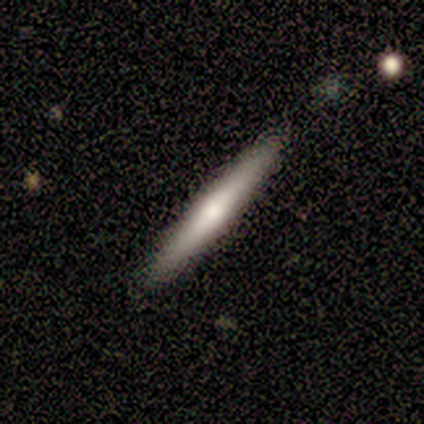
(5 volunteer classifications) Smooth or featured?
  - smooth: 60% *
  - featured or disk: 40%
  - star or artifact: 0%
How rounded?
  - cigar-shaped: 100% *
  - round: 0%
  - in between: 0%
Merging?
  - none: 100% *
  - minor disturbance: 0%
  - major disturbance: 0%
  - merger: 0%